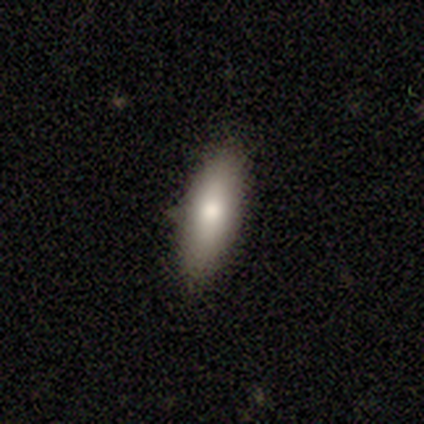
Morphology: type=featured or disk (57%); edge-on=yes (50%, tied with no); edge-on bulge=rounded (100%); merging=none (71%).